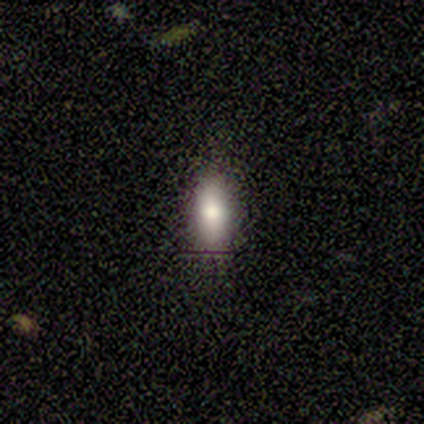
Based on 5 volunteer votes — A smooth galaxy with no disk features (100%) that is in between round and cigar-shaped (60%).

Vote fractions:
- Smooth or featured? smooth: 100% / featured or disk: 0% / star or artifact: 0%
- How rounded? in between: 60% / cigar-shaped: 40% / round: 0%
- Merging? none: 80% / minor disturbance: 20% / major disturbance: 0% / merger: 0%